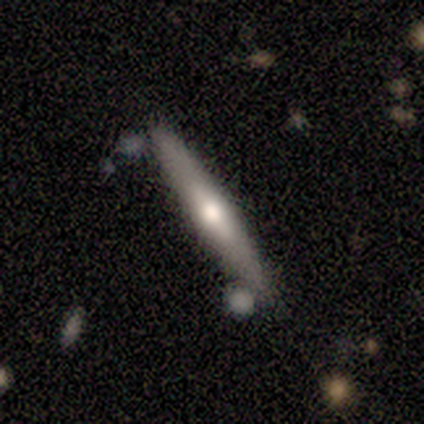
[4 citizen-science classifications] This appears to be a smooth galaxy with no disk features (75%) that is cigar-shaped (100%). Merging: none (100%).